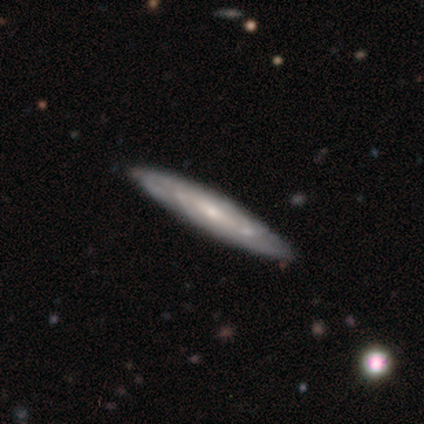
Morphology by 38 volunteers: Smooth or featured: featured or disk — 79% (smooth — 18%)
Edge-on disk: no — 57% (yes — 43%)
Bar: no — 53% (weak — 35%)
Spiral arms: yes — 94% (no — 6%)
Spiral winding: tight — 44% (tied with medium — 44%)
Spiral arm count: can't tell — 62% (2 — 25%)
Bulge size: small — 59% (moderate — 35%)
Merging: none — 59% (minor disturbance — 5%)